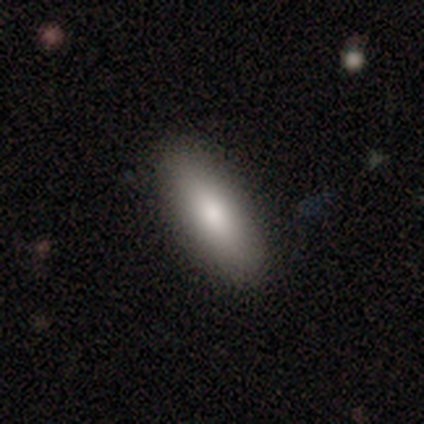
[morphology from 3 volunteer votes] This is clearly a smooth galaxy (100%). How rounded: clearly in between (100%). Merging: clearly none (100%).